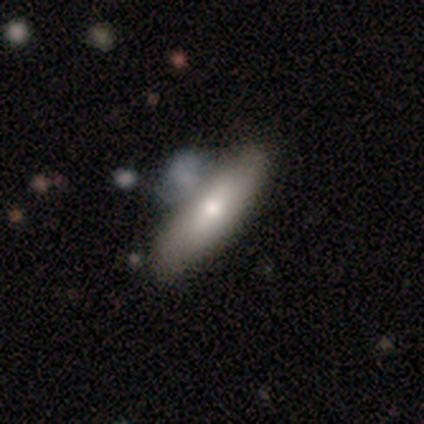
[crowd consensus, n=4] This is possibly a smooth galaxy (50%, tied with featured or disk). How rounded: clearly in between (100%). Merging: possibly none (50%).